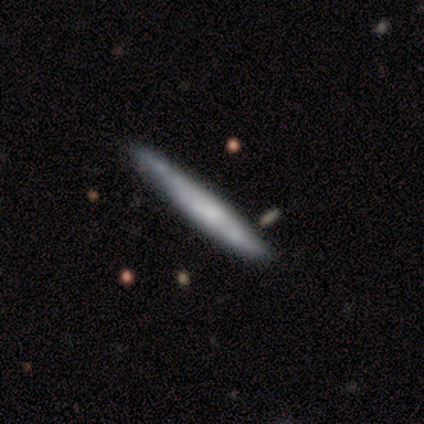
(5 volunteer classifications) smooth_or_featured: smooth (p=0.60) [alt: featured or disk p=0.40]
how_rounded: cigar-shaped (p=1.00)
merging: none (p=0.60) [alt: minor disturbance p=0.20]